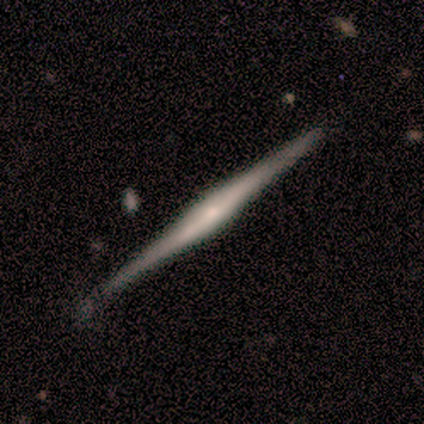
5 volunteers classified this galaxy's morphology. A featured or disk galaxy (80%) viewed edge-on (100%) with a rounded central bulge (100%). Merging: none (100%).